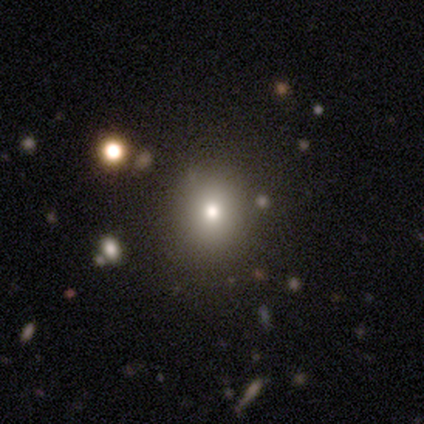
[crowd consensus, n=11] A smooth galaxy with no disk features (73%) that is round (62%). Merging: none (78%).